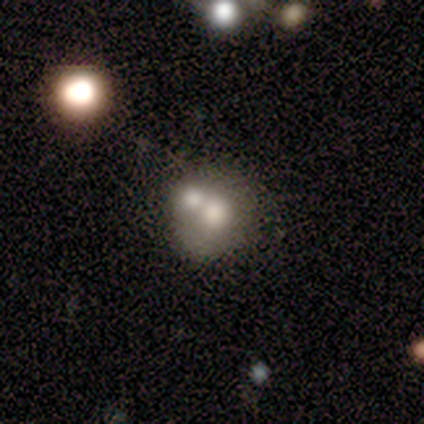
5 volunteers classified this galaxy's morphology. A smooth galaxy with no disk features (80%) that is round (75%).

Vote fractions:
- Smooth or featured? smooth: 80% / featured or disk: 20% / star or artifact: 0%
- How rounded? round: 75% / in between: 25% / cigar-shaped: 0%
- Merging? merger: 60% / none: 20% / minor disturbance: 20% / major disturbance: 0%